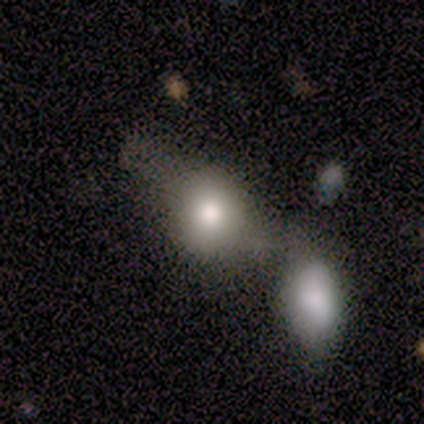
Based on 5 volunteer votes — smooth-or-featured: smooth: 80% | featured or disk: 20% | star or artifact: 0%
  how-rounded: round: 50% (tied) | in between: 50% (tied) | cigar-shaped: 0%
  merging: merger: 60% | none: 40% | minor disturbance: 0% | major disturbance: 0%